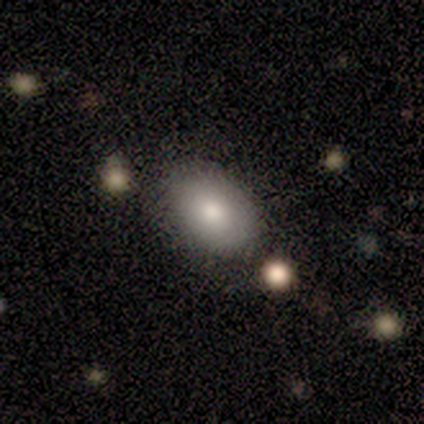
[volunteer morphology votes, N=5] Smooth or featured? smooth (80%)
How rounded? in between (100%)
Merging? none (80%)